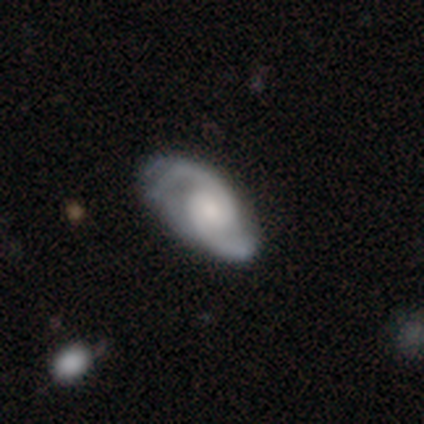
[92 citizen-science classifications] Smooth or featured: featured or disk — 88% (smooth — 9%)
Edge-on disk: no — 95% (yes — 5%)
Bar: no — 66% (weak — 23%)
Spiral arms: yes — 94% (no — 6%)
Spiral winding: medium — 56% (tight — 29%)
Spiral arm count: 2 — 96% (can't tell — 3%)
Bulge size: small — 51% (moderate — 30%)
Merging: none — 64% (minor disturbance — 22%)